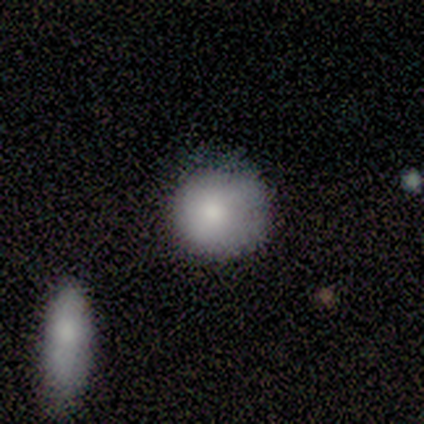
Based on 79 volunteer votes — smooth_or_featured: smooth (p=0.87) [alt: featured or disk p=0.11]
how_rounded: round (p=0.93) [alt: in between p=0.07]
merging: none (p=0.32) [alt: minor disturbance p=0.14]